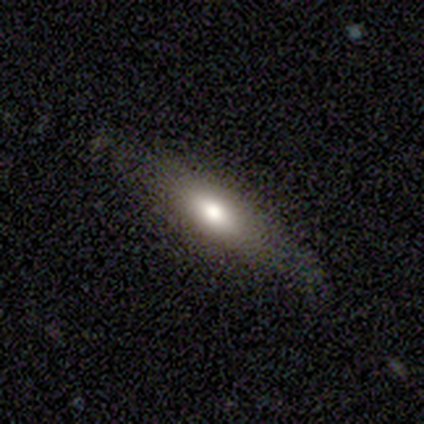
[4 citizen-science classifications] Smooth or featured? 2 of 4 (50%, tied with featured or disk) said smooth. How rounded? 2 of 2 (100%) said in between. Merging? 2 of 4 (50%, tied with minor disturbance) said none.